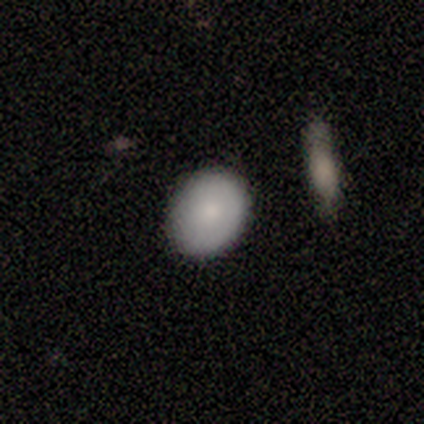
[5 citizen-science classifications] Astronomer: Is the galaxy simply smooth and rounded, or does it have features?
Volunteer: smooth — 80%.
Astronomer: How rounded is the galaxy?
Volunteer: round — 50%, tied with in between at 50%.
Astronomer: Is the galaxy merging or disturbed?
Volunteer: none — 80%.